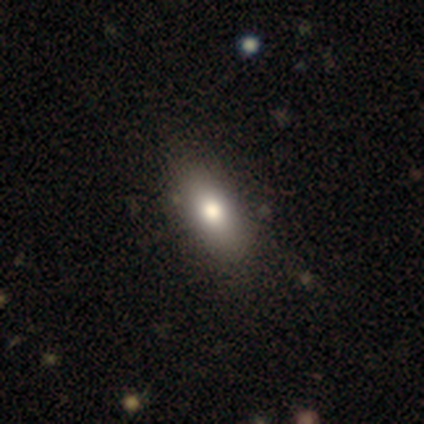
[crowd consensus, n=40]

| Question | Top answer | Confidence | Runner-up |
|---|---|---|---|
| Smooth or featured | smooth | 80% | featured or disk (15%) |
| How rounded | in between | 88% | cigar-shaped (12%) |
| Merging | none | 55% | merger (3%) |